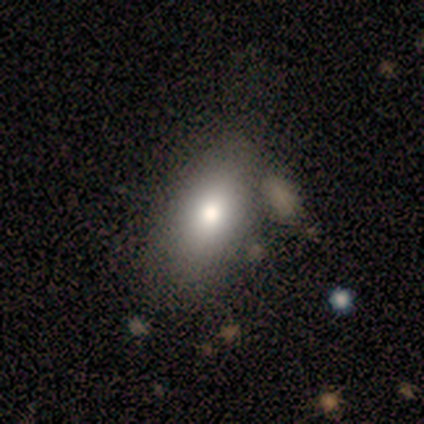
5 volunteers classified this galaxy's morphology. type=smooth (40%, tied with featured or disk); roundness=in between (100%); merging=none (75%).